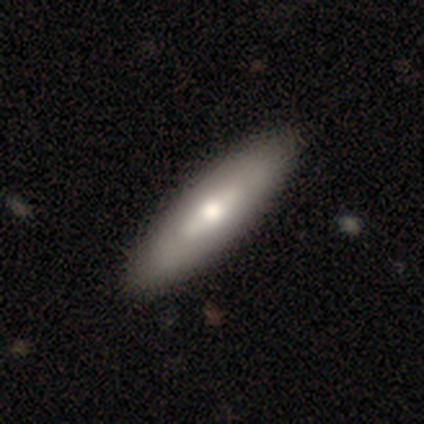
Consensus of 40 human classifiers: Smooth or featured?
  - smooth: 50% *
  - featured or disk: 48%
  - star or artifact: 2%
How rounded?
  - cigar-shaped: 55% *
  - in between: 45%
  - round: 0%
Merging?
  - none: 74% *
  - minor disturbance: 5%
  - major disturbance: 0%
  - merger: 0%